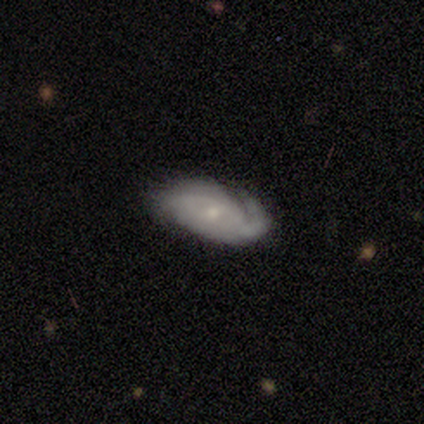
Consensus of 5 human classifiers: A featured or disk galaxy (100%) with no bar (60%), 1 (20%, tied with 2, 4, more than 4 and can't tell) medium (60%) spiral arms (100%) and a small central bulge (60%). Merging: none (60%).